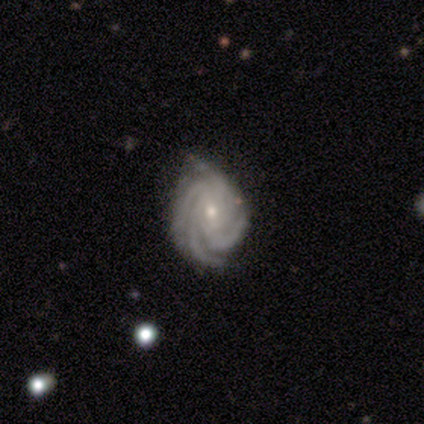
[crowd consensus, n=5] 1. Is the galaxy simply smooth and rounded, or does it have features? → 60% featured or disk, 40% smooth, 0% star or artifact.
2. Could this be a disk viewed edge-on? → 100% no, 0% yes.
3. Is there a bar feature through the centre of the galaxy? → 67% weak, 33% strong, 0% no.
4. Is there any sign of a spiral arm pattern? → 100% yes, 0% no.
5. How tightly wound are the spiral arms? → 67% tight, 33% medium, 0% loose.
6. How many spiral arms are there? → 100% 4, 0% 1, 0% 2, 0% 3, 0% more than 4, 0% can't tell.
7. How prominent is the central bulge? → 67% small, 33% moderate, 0% dominant, 0% large, 0% none.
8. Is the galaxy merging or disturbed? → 60% none, 20% minor disturbance, 20% merger, 0% major disturbance.